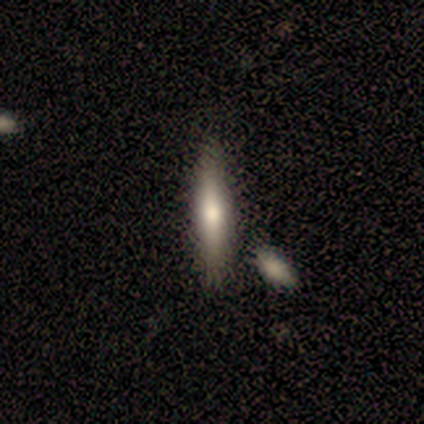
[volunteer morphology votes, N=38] Q: Smooth or featured?
A: smooth (47%); tied with: featured or disk (47%)
Q: How rounded?
A: cigar-shaped (89%); runner-up: in between (11%)
Q: Merging?
A: none (67%); runner-up: merger (14%)